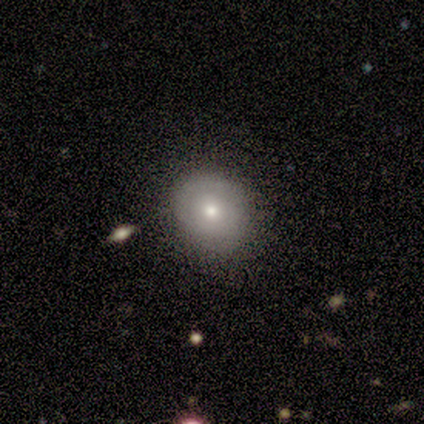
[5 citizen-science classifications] A smooth galaxy with no disk features (80%) that is round (75%). Merging: none (60%).